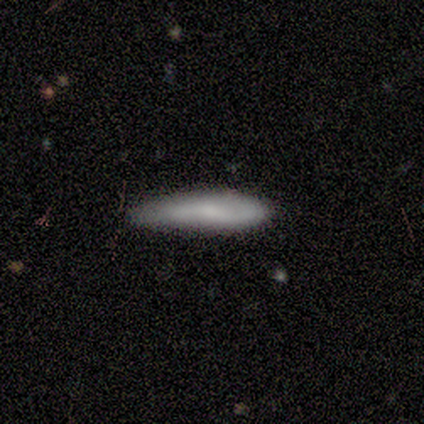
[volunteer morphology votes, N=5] Smooth or featured? smooth (40%, tied with featured or disk)
How rounded? in between (100%)
Merging? none (50%, tied with minor disturbance)